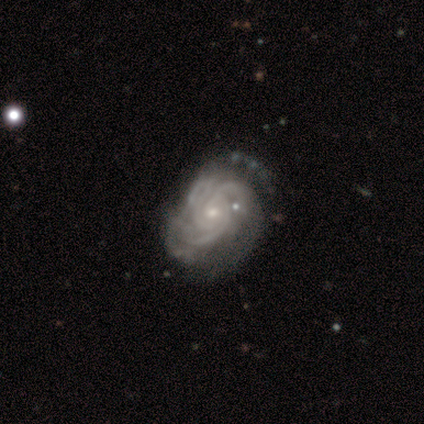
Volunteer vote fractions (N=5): Smooth or featured: featured or disk — 100%
Edge-on disk: no — 100%
Bar: no — 80% (weak — 20%)
Spiral arms: yes — 100%
Spiral winding: medium — 60% (tight — 40%)
Spiral arm count: 3 — 60% (more than 4 — 20%)
Bulge size: small — 80% (moderate — 20%)
Merging: minor disturbance — 40% (none — 20%)